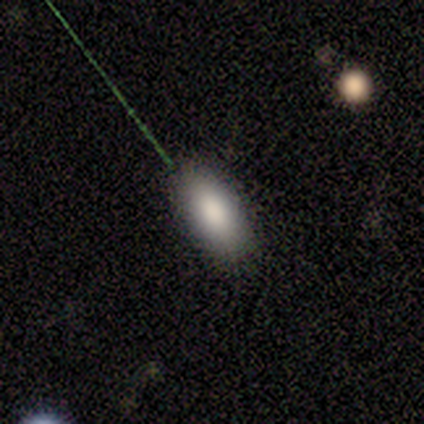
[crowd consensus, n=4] Morphology: type=smooth (75%); roundness=in between (100%); merging=none (100%).